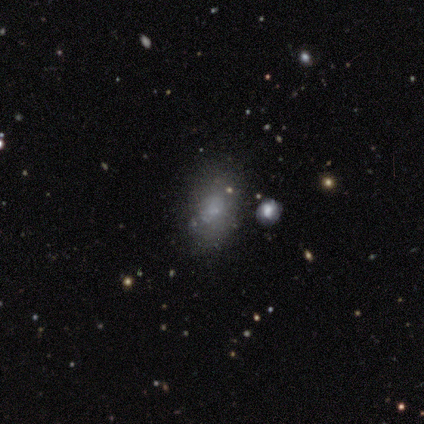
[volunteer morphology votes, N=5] smooth_or_featured: smooth (p=0.80) [alt: star or artifact p=0.20]
how_rounded: in between (p=1.00)
merging: none (p=0.50) [alt: minor disturbance p=0.25]